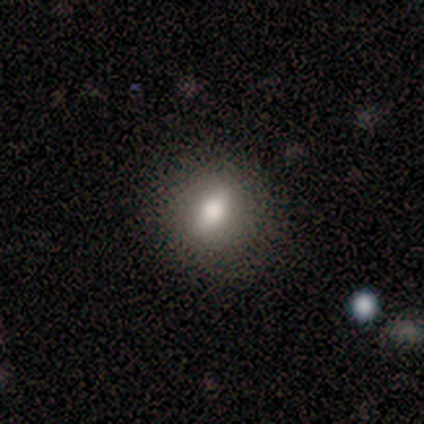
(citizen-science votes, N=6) A smooth galaxy with no disk features (50%) that is round (67%).

Vote fractions:
- Smooth or featured? smooth: 50% / featured or disk: 33% / star or artifact: 17%
- How rounded? round: 67% / in between: 33% / cigar-shaped: 0%
- Merging? none: 80% / minor disturbance: 20% / major disturbance: 0% / merger: 0%